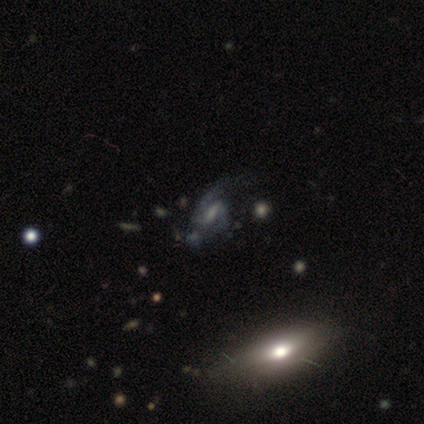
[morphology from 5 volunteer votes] smooth_or_featured: featured or disk (p=1.00)
disk_edge_on: no (p=1.00)
bar: strong (p=0.60) [alt: weak p=0.20]
has_spiral_arms: yes (p=1.00)
spiral_winding: loose (p=0.60) [alt: tight p=0.40]
spiral_arm_count: 2 (p=1.00)
bulge_size: none (p=0.60) [alt: moderate p=0.40]
merging: none (p=0.40) [tied with: major disturbance p=0.40]